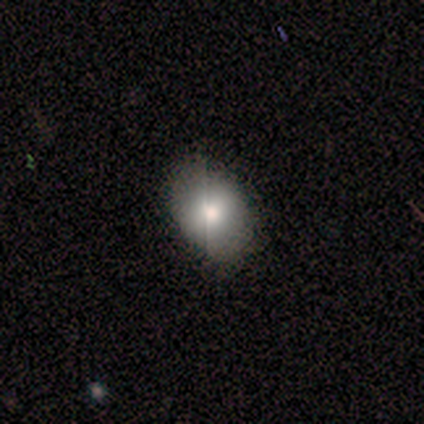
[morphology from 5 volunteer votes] A smooth galaxy with no disk features (80%) that is round (50%, tied with in between).

Vote fractions:
- Smooth or featured? smooth: 80% / featured or disk: 20% / star or artifact: 0%
- How rounded? round: 50% (tied) / in between: 50% (tied) / cigar-shaped: 0%
- Merging? none: 100% / minor disturbance: 0% / major disturbance: 0% / merger: 0%